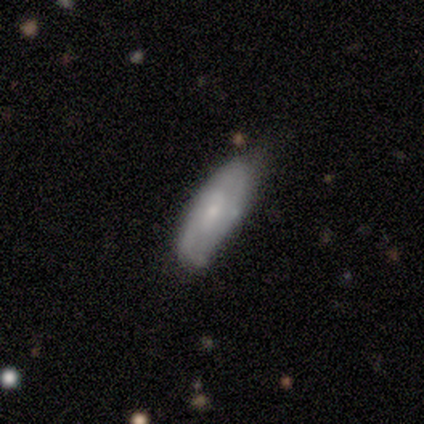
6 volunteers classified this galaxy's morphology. Overall: featured or disk (67%; smooth 33%). Edge-on disk: no (100%). Bar: no (75%). Spiral arms: yes (50%, tied with no). Spiral arm count: 3 (50%, tied with can't tell). Spiral winding: loose (100%). Bulge size: moderate (50%, tied with small). Merging: none (67%; minor disturbance 33%).